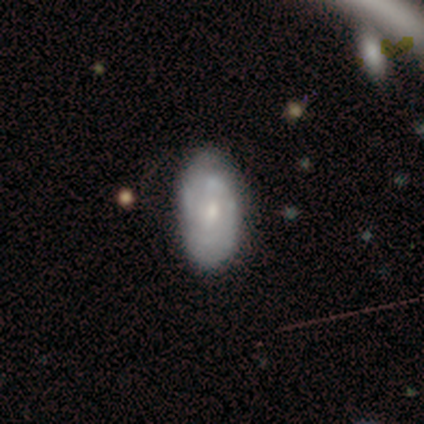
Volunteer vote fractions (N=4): Q: Smooth or featured?
A: featured or disk (100%)
Q: Edge-on disk?
A: no (100%)
Q: Bar?
A: weak (50%); runner-up: strong (25%)
Q: Spiral arms?
A: yes (75%); runner-up: no (25%)
Q: Spiral winding?
A: medium (67%); runner-up: tight (33%)
Q: Spiral arm count?
A: 2 (100%)
Q: Bulge size?
A: small (75%); runner-up: none (25%)
Q: Merging?
A: none (75%); runner-up: minor disturbance (25%)